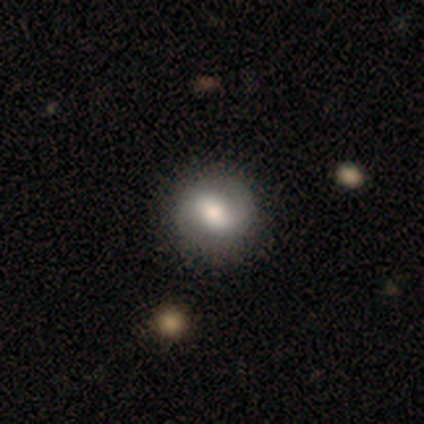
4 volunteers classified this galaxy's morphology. Overall: smooth (50%, tied with featured or disk). How rounded: in between (100%). Merging: none (75%).